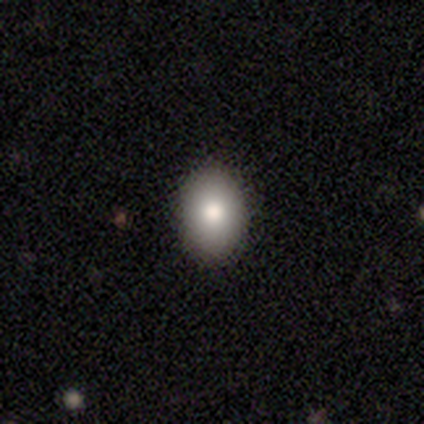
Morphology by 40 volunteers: Overall: smooth (85%). How rounded: in between (79%). Merging: none (89%).